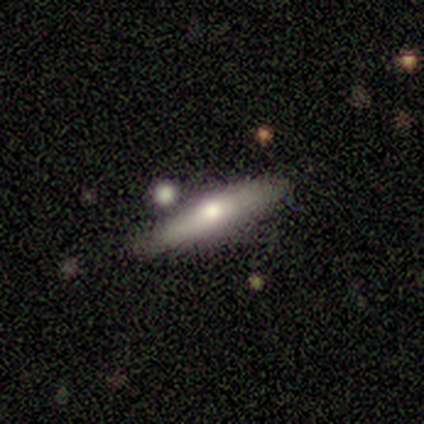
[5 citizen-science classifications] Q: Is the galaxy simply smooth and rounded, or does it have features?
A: smooth — 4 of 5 (80%).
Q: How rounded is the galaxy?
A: in between — 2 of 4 (50%, tied with cigar-shaped).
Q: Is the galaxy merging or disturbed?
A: none — 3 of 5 (60%).